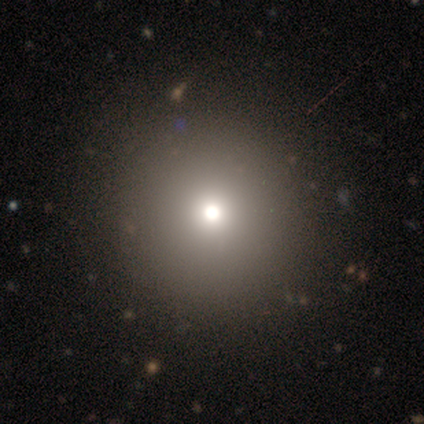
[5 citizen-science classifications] smooth-or-featured: smooth: 40% (tied) | star or artifact: 40% (tied) | featured or disk: 20%
  how-rounded: round: 100% | in between: 0% | cigar-shaped: 0%
  merging: none: 100% | minor disturbance: 0% | major disturbance: 0% | merger: 0%